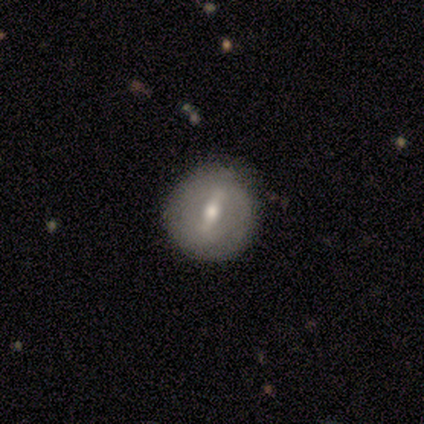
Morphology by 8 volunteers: Smooth or featured? 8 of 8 (100%) said featured or disk. Edge-on disk? 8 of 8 (100%) said no. Bar? 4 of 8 (50%, tied with weak) said strong. Spiral arms? 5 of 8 (62%) said no. Bulge size? 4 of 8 (50%, tied with small) said moderate. Merging? 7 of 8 (88%) said none.